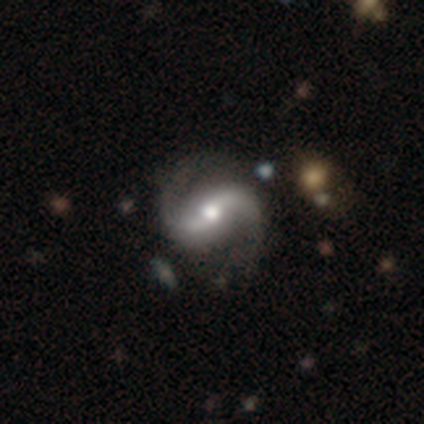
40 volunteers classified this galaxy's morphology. Smooth or featured?
  - featured or disk: 95% *
  - smooth: 2%
  - star or artifact: 2%
Edge-on disk?
  - no: 97% *
  - yes: 3%
Bar?
  - strong: 46% *
  - weak: 43%
  - no: 11%
Spiral arms?
  - yes: 100% *
  - no: 0%
Spiral winding?
  - loose: 54% *
  - medium: 43%
  - tight: 3%
Spiral arm count?
  - 2: 100% *
  - 1: 0%
  - 3: 0%
  - 4: 0%
  - more than 4: 0%
  - can't tell: 0%
Bulge size?
  - moderate: 78% *
  - large: 11%
  - small: 8%
  - dominant: 3%
  - none: 0%
Merging?
  - none: 74% *
  - minor disturbance: 15%
  - major disturbance: 8%
  - merger: 3%